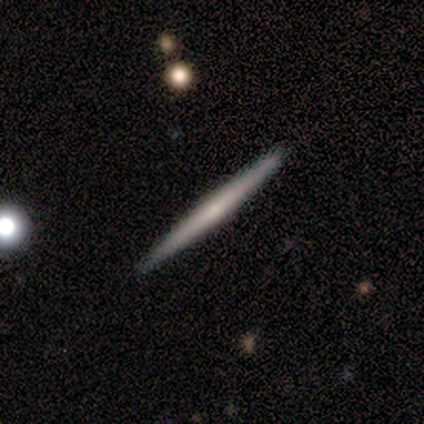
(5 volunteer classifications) Q: Smooth or featured?
A: featured or disk (80%); runner-up: smooth (20%)
Q: Edge-on disk?
A: yes (100%)
Q: Edge-on bulge?
A: none (75%); runner-up: boxy (25%)
Q: Merging?
A: none (100%)